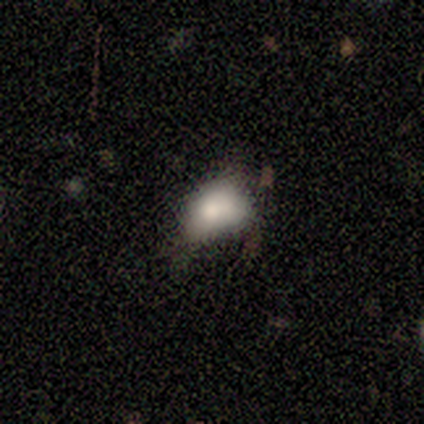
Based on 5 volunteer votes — Smooth or featured?
  - smooth: 80% *
  - featured or disk: 20%
  - star or artifact: 0%
How rounded?
  - in between: 75% *
  - round: 25%
  - cigar-shaped: 0%
Merging?
  - none: 40% * (tied)
  - minor disturbance: 40% * (tied)
  - major disturbance: 20%
  - merger: 0%